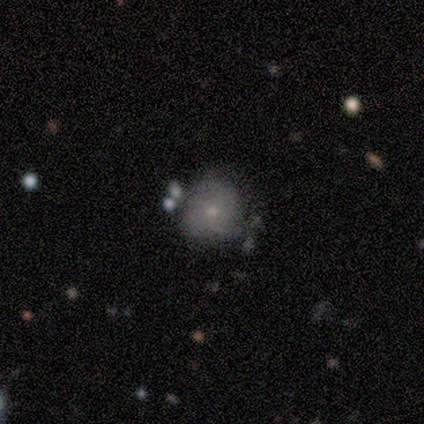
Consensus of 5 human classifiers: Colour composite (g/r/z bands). It shows a smooth galaxy with no disk features (60%) that is round (100%). Merging: none (50%).